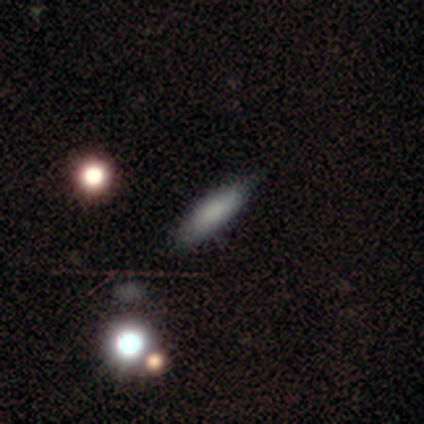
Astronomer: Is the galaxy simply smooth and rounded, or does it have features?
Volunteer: smooth — 67%.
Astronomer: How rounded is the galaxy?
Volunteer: in between — 50%, tied with cigar-shaped at 50%.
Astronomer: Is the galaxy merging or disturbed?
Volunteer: none — 67%.